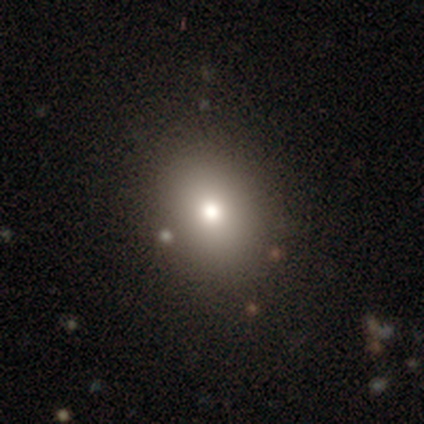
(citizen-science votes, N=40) Smooth or featured? 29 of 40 (72%) said smooth. How rounded? 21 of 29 (72%) said in between. Merging? 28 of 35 (80%) said none.